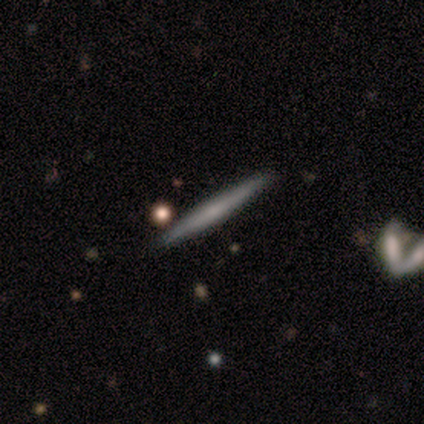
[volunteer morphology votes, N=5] This is likely a featured or disk galaxy (60%). It is clearly viewed edge-on (100%). Edge-on bulge: likely none (67%). Merging: clearly none (100%).